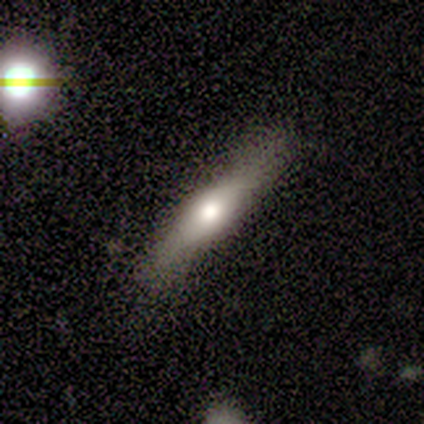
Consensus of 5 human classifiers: Smooth or featured?
  - featured or disk: 80% *
  - smooth: 20%
  - star or artifact: 0%
Edge-on disk?
  - yes: 75% *
  - no: 25%
Edge-on bulge?
  - rounded: 100% *
  - boxy: 0%
  - none: 0%
Merging?
  - none: 80% *
  - major disturbance: 20%
  - minor disturbance: 0%
  - merger: 0%